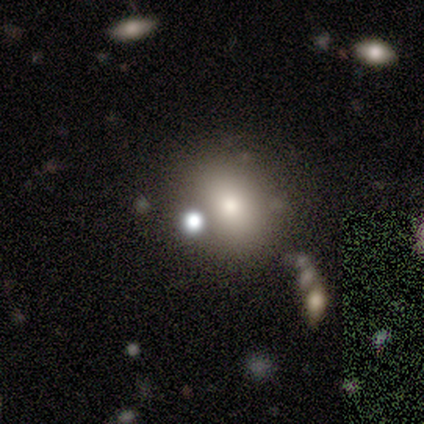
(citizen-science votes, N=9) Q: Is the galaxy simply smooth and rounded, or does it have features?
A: smooth — 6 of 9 (67%).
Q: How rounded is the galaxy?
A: round — 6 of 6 (100%).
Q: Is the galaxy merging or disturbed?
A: none — 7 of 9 (78%).